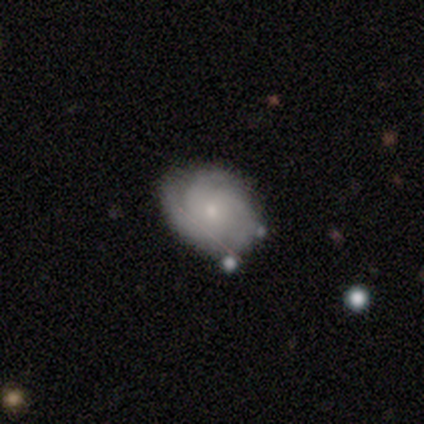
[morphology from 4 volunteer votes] smooth_or_featured: featured or disk (p=0.50) [alt: smooth p=0.25]
disk_edge_on: yes (p=0.50) [tied with: no p=0.50]
edge_on_bulge: rounded (p=1.00)
merging: none (p=0.67) [alt: minor disturbance p=0.33]